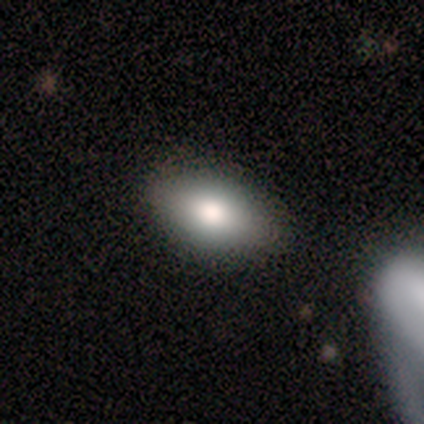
Smooth or featured? 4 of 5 (80%) said smooth. How rounded? 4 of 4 (100%) said in between. Merging? 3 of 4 (75%) said none.